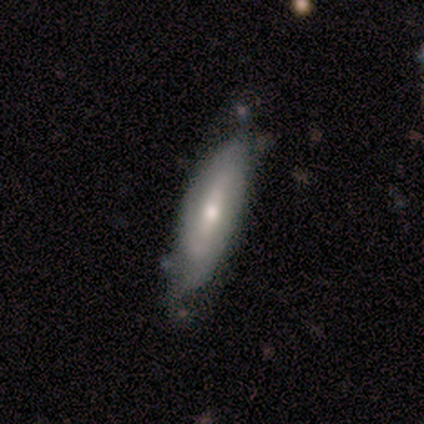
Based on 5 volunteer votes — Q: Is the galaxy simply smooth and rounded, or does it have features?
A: smooth — 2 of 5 (40%, tied with featured or disk).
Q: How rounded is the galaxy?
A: in between — 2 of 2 (100%).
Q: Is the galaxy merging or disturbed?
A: none — 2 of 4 (50%).